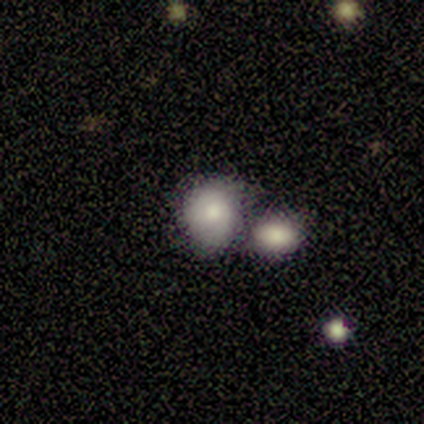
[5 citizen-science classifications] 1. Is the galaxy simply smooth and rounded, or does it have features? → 40% smooth (tied), 40% featured or disk (tied), 20% star or artifact.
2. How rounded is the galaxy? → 100% round, 0% in between, 0% cigar-shaped.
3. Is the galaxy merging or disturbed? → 50% none (tied), 50% merger (tied), 0% minor disturbance, 0% major disturbance.